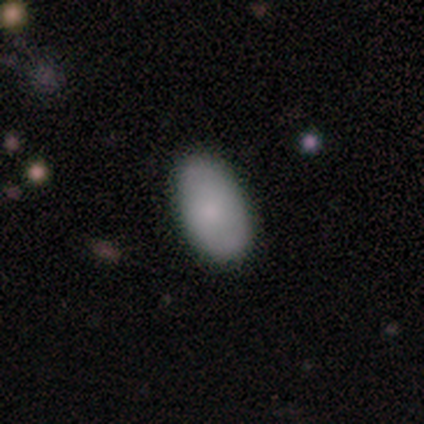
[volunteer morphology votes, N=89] type=smooth (79%); roundness=in between (96%); merging=none (86%).